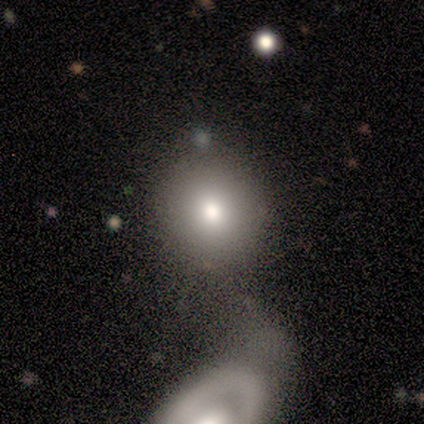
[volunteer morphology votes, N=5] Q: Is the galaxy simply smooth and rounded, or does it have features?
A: smooth — 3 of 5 (60%).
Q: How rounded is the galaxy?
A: round — 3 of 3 (100%).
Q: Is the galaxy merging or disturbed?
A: none — 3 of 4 (75%).